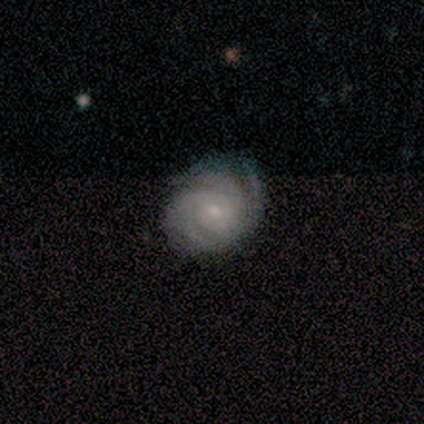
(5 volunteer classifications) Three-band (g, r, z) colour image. It shows a featured or disk galaxy (100%) with no bar (60%), 3 (40%, tied with can't tell) tight (100%) spiral arms (100%) and a small central bulge (100%). Merging: minor disturbance (60%).